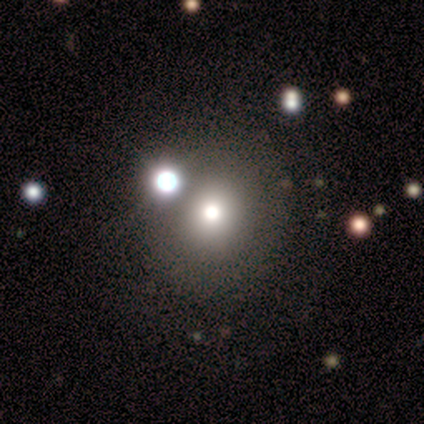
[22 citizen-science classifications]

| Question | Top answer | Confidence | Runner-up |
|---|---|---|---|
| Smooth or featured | smooth | 77% | star or artifact (18%) |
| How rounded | round | 82% | in between (18%) |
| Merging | none | 78% | merger (17%) |